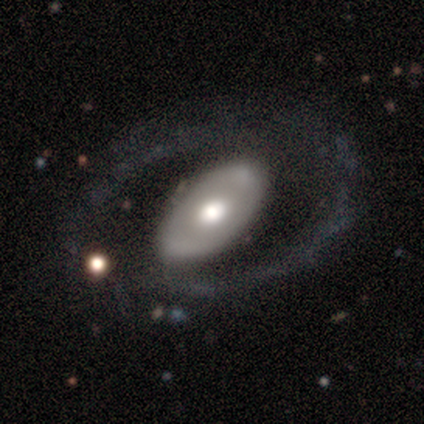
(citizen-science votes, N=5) smooth-or-featured: featured or disk: 60% | smooth: 40% | star or artifact: 0%
  disk-edge-on: no: 100% | yes: 0%
    bar: no: 67% | weak: 33% | strong: 0%
    has-spiral-arms: yes: 67% | no: 33%
      spiral-winding: medium: 50% (tied) | loose: 50% (tied) | tight: 0%
      spiral-arm-count: 2: 100% | 1: 0% | 3: 0% | 4: 0% | more than 4: 0% | can't tell: 0%
    bulge-size: moderate: 67% | small: 33% | dominant: 0% | large: 0% | none: 0%
  merging: none: 60% | major disturbance: 40% | minor disturbance: 0% | merger: 0%